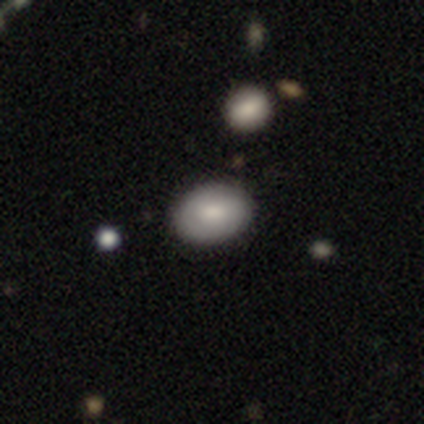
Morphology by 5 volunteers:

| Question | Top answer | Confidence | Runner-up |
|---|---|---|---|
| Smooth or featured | smooth | 80% | featured or disk (20%) |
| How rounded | in between | 75% | round (25%) |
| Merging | none | 80% | major disturbance (20%) |